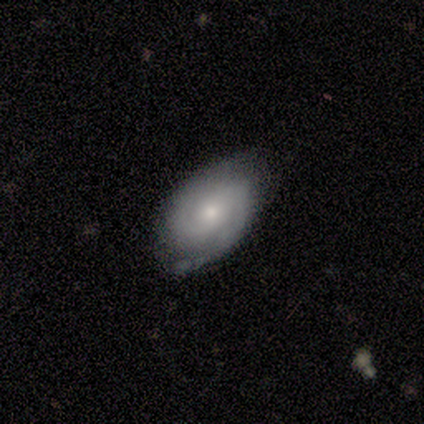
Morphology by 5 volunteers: Q: Smooth or featured?
A: featured or disk (60%); runner-up: smooth (20%)
Q: Edge-on disk?
A: no (100%)
Q: Bar?
A: no (67%); runner-up: strong (33%)
Q: Spiral arms?
A: yes (100%)
Q: Spiral winding?
A: tight (100%)
Q: Spiral arm count?
A: 2 (100%)
Q: Bulge size?
A: large (33%); tied with: moderate (33%); small (33%)
Q: Merging?
A: none (50%); tied with: minor disturbance (50%)